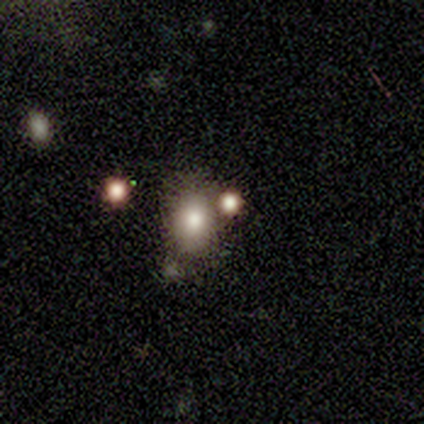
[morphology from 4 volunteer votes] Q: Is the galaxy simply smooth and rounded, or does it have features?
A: smooth — 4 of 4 (100%).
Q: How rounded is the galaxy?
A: in between — 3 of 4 (75%).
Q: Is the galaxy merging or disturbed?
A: none — 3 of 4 (75%).